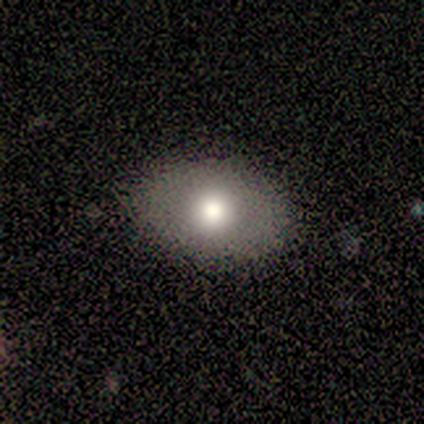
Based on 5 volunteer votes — Smooth or featured: smooth — 80% (star or artifact — 20%)
How rounded: round — 50% (tied with in between — 50%)
Merging: none — 75% (minor disturbance — 25%)